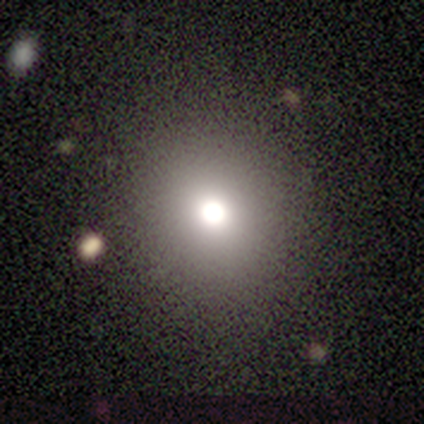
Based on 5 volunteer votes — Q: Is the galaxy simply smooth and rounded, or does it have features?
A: smooth — 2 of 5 (40%, tied with star or artifact).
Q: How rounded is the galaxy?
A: round — 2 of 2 (100%).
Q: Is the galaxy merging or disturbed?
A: none — 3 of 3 (100%).